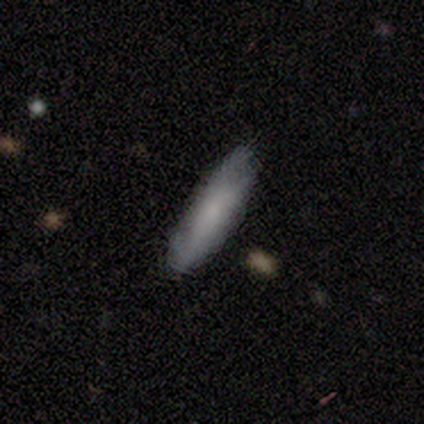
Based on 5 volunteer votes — This is clearly a smooth galaxy (80%). How rounded: likely cigar-shaped (75%). Merging: clearly none (80%).